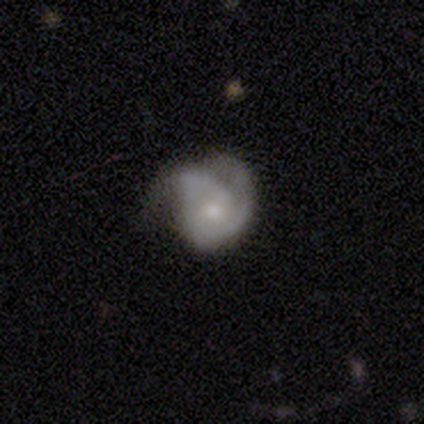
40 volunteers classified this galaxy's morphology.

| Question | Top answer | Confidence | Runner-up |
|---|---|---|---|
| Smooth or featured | featured or disk | 70% | smooth (25%) |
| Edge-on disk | no | 96% | yes (4%) |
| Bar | no | 74% | weak (26%) |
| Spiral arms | yes | 74% | no (26%) |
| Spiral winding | tight | 55% | medium (40%) |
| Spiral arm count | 2 | 55% | can't tell (25%) |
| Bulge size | small | 52% | moderate (37%) |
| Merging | major disturbance | 53% | none (21%) |